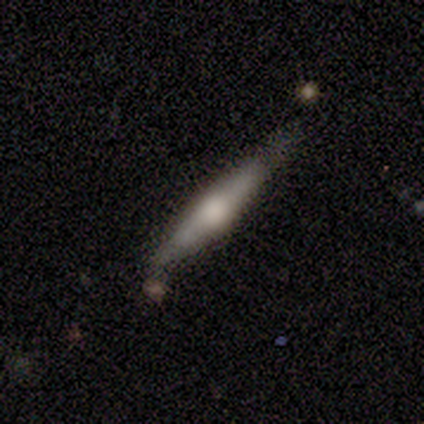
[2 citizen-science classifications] Smooth or featured?
  - smooth: 50% * (tied)
  - featured or disk: 50% * (tied)
  - star or artifact: 0%
How rounded?
  - cigar-shaped: 100% *
  - round: 0%
  - in between: 0%
Merging?
  - none: 100% *
  - minor disturbance: 0%
  - major disturbance: 0%
  - merger: 0%